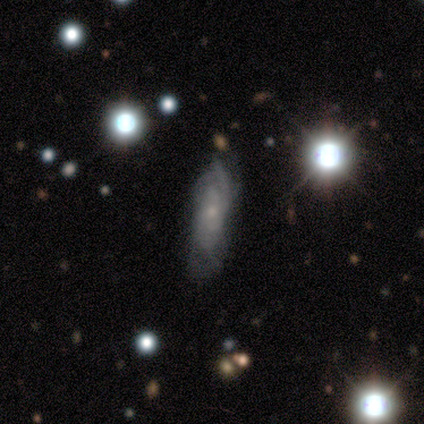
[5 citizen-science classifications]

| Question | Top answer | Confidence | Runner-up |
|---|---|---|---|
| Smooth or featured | featured or disk | 80% | smooth (20%) |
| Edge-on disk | no | 75% | yes (25%) |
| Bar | no | 100% | — |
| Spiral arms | yes | 100% | — |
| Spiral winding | loose | 67% | tight (33%) |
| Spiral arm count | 2 | 33% | tied: 4 (33%), can't tell (33%) |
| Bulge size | small | 67% | moderate (33%) |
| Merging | none | 80% | minor disturbance (20%) |